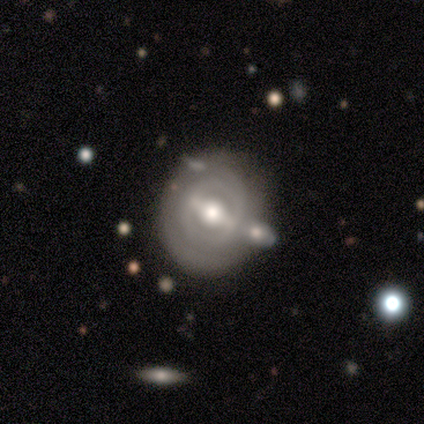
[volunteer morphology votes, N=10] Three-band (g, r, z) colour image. It shows a featured or disk galaxy (80%) with a weak bar (57%), 2 (40%, tied with can't tell) tight (60%) spiral arms (71%) and a moderate central bulge (86%). Merging: none (50%).